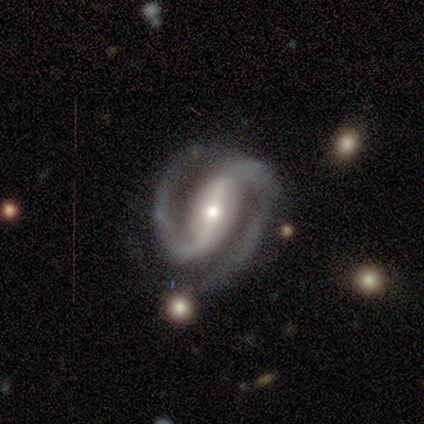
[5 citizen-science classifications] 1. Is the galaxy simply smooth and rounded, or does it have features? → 80% featured or disk, 20% star or artifact, 0% smooth.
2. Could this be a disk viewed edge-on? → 100% no, 0% yes.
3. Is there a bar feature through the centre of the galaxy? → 50% strong, 25% weak, 25% no.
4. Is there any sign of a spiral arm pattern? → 100% yes, 0% no.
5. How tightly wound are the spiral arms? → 50% medium, 25% tight, 25% loose.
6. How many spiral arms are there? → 100% 2, 0% 1, 0% 3, 0% 4, 0% more than 4, 0% can't tell.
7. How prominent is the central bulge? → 75% small, 25% moderate, 0% dominant, 0% large, 0% none.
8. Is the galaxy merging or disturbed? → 75% none, 25% minor disturbance, 0% major disturbance, 0% merger.